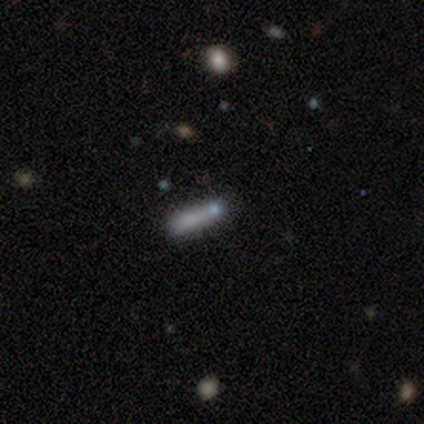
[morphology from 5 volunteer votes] A smooth galaxy with no disk features (80%) that is in between round and cigar-shaped (50%).

Vote fractions:
- Smooth or featured? smooth: 80% / featured or disk: 20% / star or artifact: 0%
- How rounded? in between: 50% / round: 25% / cigar-shaped: 25%
- Merging? none: 100% / minor disturbance: 0% / major disturbance: 0% / merger: 0%